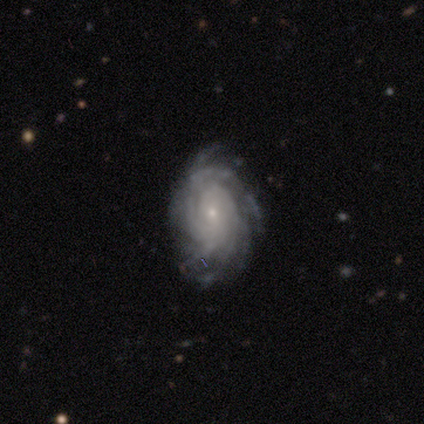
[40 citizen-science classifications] A featured or disk galaxy (90%) with no bar (69%), more than 4 (43%) tight (69%) spiral arms (100%) and a small central bulge (80%). Merging: none (79%).